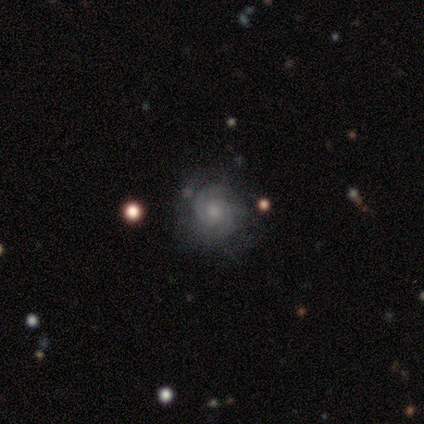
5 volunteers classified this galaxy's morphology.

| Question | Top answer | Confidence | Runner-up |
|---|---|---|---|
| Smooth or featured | featured or disk | 60% | smooth (20%) |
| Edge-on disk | no | 100% | — |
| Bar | no | 100% | — |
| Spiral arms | yes | 100% | — |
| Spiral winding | tight | 33% | tied: medium (33%), loose (33%) |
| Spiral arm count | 2 | 100% | — |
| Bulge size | moderate | 67% | small (33%) |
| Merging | none | 75% | minor disturbance (25%) |